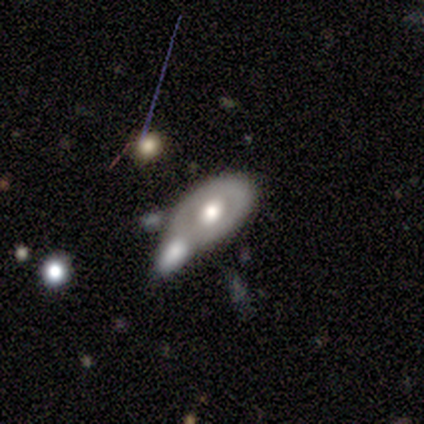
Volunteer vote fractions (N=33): featured or disk 67%, smooth 21%, star or artifact 12%. Down the decision tree: edge-on disk — no (100%); bar — no (86%); spiral arms — no (86%); bulge size — moderate (68%); merging — none (38%, tied with merger).